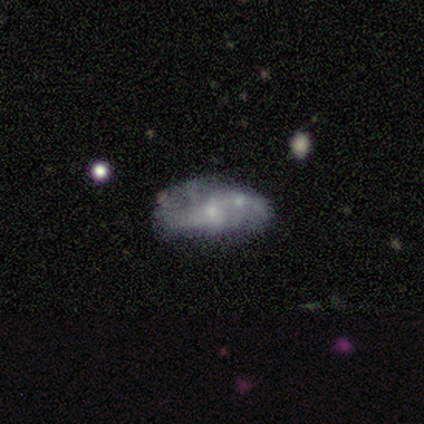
Smooth or featured?
  - featured or disk: 54% *
  - smooth: 46%
  - star or artifact: 0%
Edge-on disk?
  - no: 100% *
  - yes: 0%
Bar?
  - no: 86% *
  - weak: 14%
  - strong: 0%
Spiral arms?
  - yes: 57% *
  - no: 43%
Spiral winding?
  - loose: 100% *
  - tight: 0%
  - medium: 0%
Spiral arm count?
  - 2: 75% *
  - 1: 25%
  - 3: 0%
  - 4: 0%
  - more than 4: 0%
  - can't tell: 0%
Bulge size?
  - small: 43% *
  - moderate: 29%
  - none: 29%
  - dominant: 0%
  - large: 0%
Merging?
  - none: 46% *
  - minor disturbance: 38%
  - major disturbance: 8%
  - merger: 8%